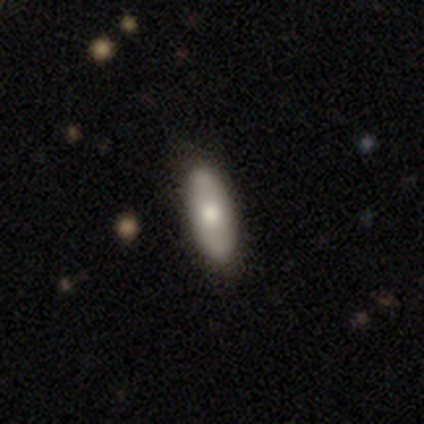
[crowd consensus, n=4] smooth-or-featured: smooth: 75% | featured or disk: 25% | star or artifact: 0%
  how-rounded: in between: 67% | cigar-shaped: 33% | round: 0%
  merging: none: 100% | minor disturbance: 0% | major disturbance: 0% | merger: 0%